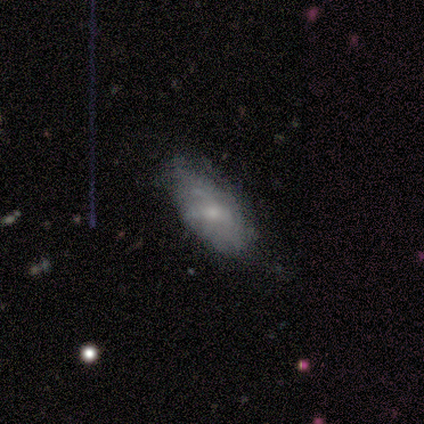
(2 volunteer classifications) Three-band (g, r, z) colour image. It shows a smooth galaxy with no disk features (50%, tied with featured or disk) that is in between round and cigar-shaped (100%). Merging: none (50%, tied with minor disturbance).